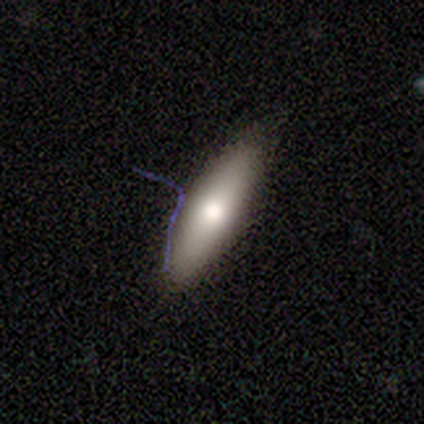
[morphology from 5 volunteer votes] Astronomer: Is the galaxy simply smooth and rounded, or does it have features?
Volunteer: featured or disk — 60% (runner-up: smooth, 40%).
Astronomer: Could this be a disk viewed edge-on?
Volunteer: yes — 67%.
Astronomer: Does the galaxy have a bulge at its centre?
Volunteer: rounded — 100%.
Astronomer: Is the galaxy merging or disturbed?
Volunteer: none — 60% (runner-up: minor disturbance, 40%).